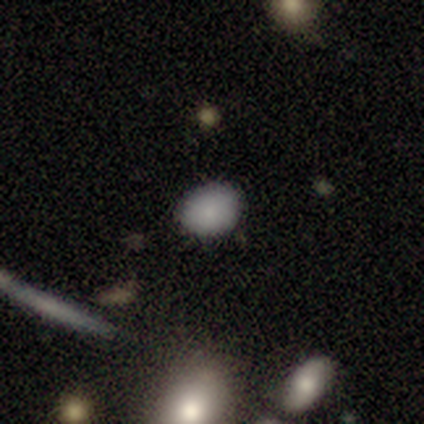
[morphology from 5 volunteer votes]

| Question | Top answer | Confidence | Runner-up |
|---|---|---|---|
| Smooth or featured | smooth | 100% | — |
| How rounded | in between | 60% | round (40%) |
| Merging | none | 100% | — |